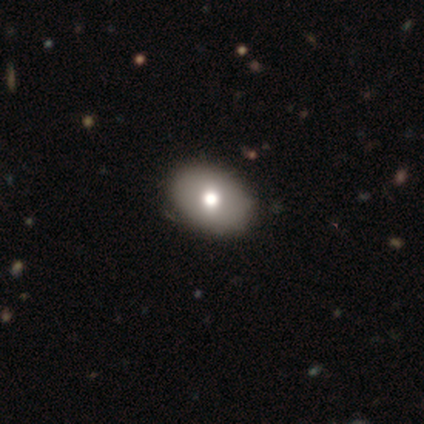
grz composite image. It shows a featured or disk galaxy (60%) with no bar (100%), no spiral arms (100%) and a moderate central bulge (67%). Merging: none (100%).